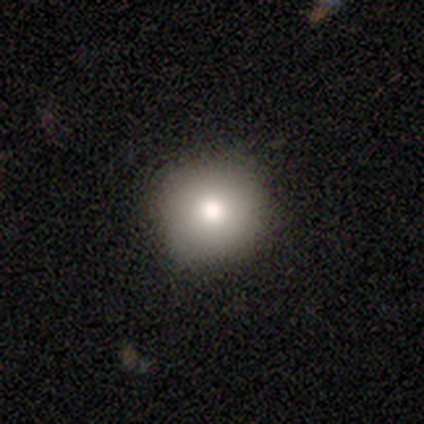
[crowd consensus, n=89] A smooth galaxy with no disk features (72%) that is round (100%).

Vote fractions:
- Smooth or featured? smooth: 72% / star or artifact: 15% / featured or disk: 13%
- How rounded? round: 100% / in between: 0% / cigar-shaped: 0%
- Merging? none: 89% / minor disturbance: 9% / major disturbance: 1% / merger: 0%